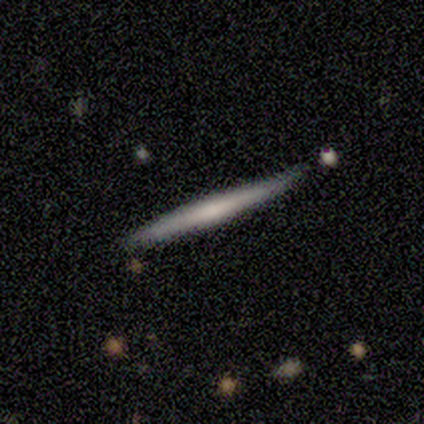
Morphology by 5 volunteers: smooth_or_featured: smooth (p=0.60) [alt: featured or disk p=0.40]
how_rounded: cigar-shaped (p=1.00)
merging: none (p=1.00)